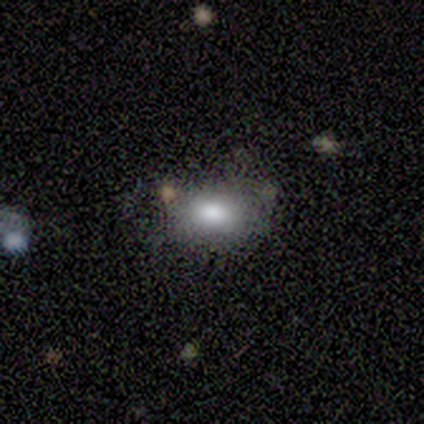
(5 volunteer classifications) smooth-or-featured: smooth: 80% | featured or disk: 20% | star or artifact: 0%
  how-rounded: in between: 100% | round: 0% | cigar-shaped: 0%
  merging: none: 80% | minor disturbance: 20% | major disturbance: 0% | merger: 0%